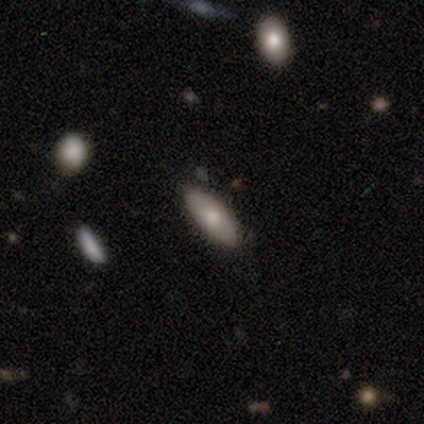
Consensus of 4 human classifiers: Consensus on every question: smooth or featured — smooth (100%); how rounded — in between (100%); merging — none (100%).